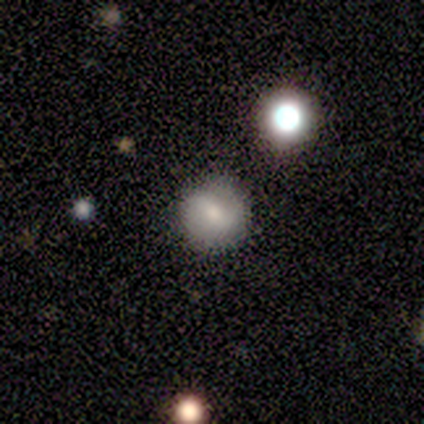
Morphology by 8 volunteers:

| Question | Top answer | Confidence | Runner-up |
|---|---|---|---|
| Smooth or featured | smooth | 50% | tied: featured or disk (50%) |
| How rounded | round | 100% | — |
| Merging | none | 75% | minor disturbance (25%) |